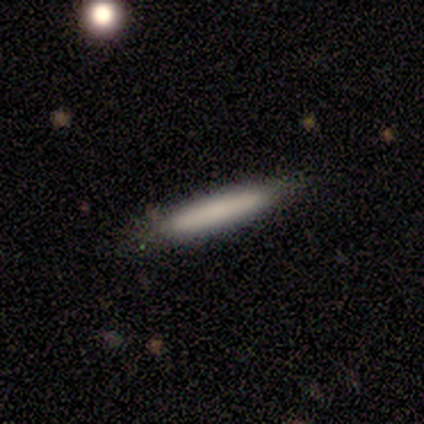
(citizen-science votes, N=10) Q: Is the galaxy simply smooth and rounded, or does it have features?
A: smooth — 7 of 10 (70%).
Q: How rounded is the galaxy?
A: cigar-shaped — 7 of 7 (100%).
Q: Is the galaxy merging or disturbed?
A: none — 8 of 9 (89%).